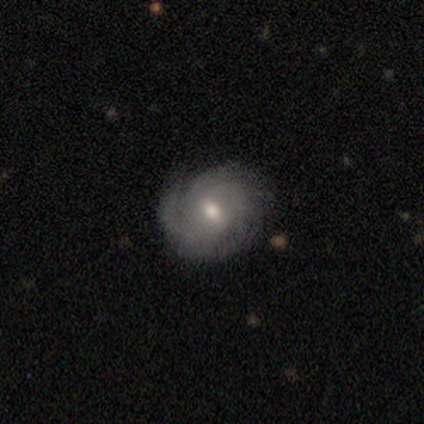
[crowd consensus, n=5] Smooth or featured? 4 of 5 (80%) said featured or disk. Edge-on disk? 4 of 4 (100%) said no. Bar? 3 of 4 (75%) said no. Spiral arms? 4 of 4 (100%) said yes. Spiral winding? 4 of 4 (100%) said tight. Spiral arm count? 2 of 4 (50%) said can't tell. Bulge size? 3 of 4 (75%) said small. Merging? 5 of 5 (100%) said none.